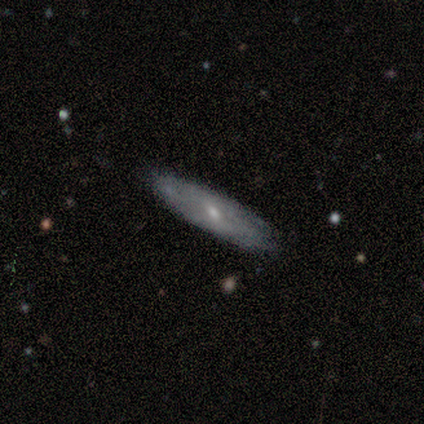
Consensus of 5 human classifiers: smooth 60%, featured or disk 40%, star or artifact 0%. Down the decision tree: how rounded — cigar-shaped (67%); merging — none (80%).